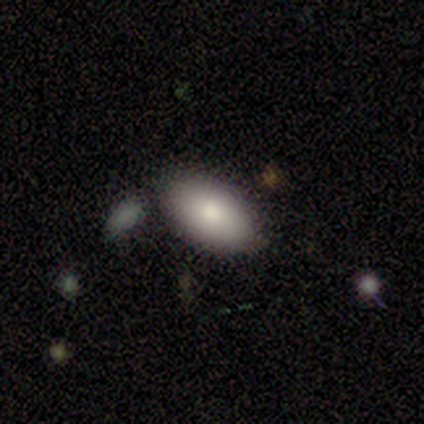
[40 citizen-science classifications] smooth_or_featured: smooth (p=0.72) [alt: featured or disk p=0.17]
how_rounded: in between (p=0.97) [alt: round p=0.03]
merging: none (p=0.78) [alt: minor disturbance p=0.08]